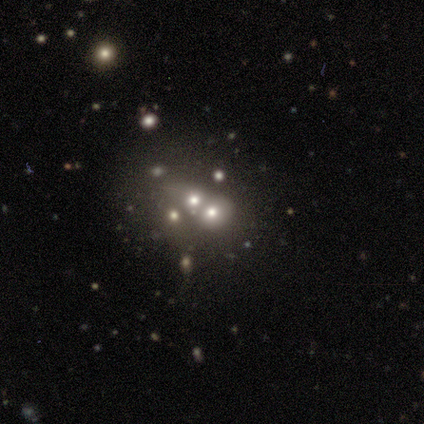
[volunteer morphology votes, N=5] Smooth or featured: smooth — 40% (tied with star or artifact — 40%)
How rounded: round — 50% (tied with in between — 50%)
Merging: merger — 67% (major disturbance — 33%)